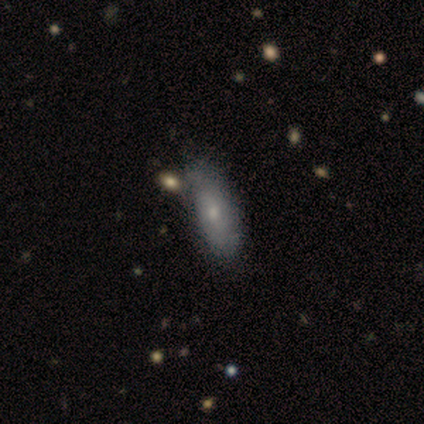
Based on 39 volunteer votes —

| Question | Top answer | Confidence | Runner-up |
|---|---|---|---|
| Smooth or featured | smooth | 67% | featured or disk (28%) |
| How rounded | in between | 85% | cigar-shaped (15%) |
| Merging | none | 51% | minor disturbance (16%) |